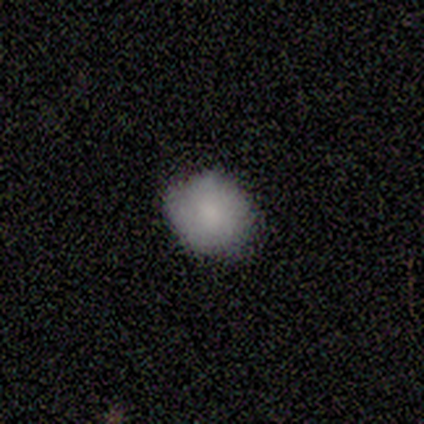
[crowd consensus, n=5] Smooth or featured? 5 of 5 (100%) said smooth. How rounded? 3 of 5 (60%) said round. Merging? 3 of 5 (60%) said minor disturbance.